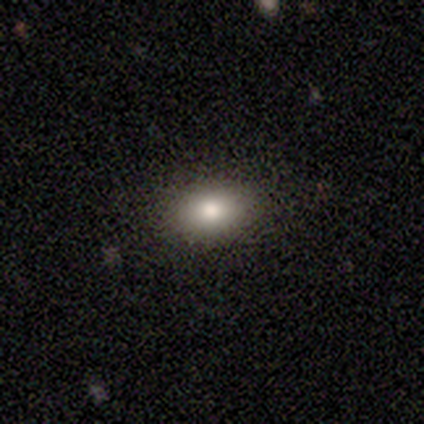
smooth 60%, featured or disk 40%, star or artifact 0%. Down the decision tree: how rounded — in between (67%); merging — none (100%).